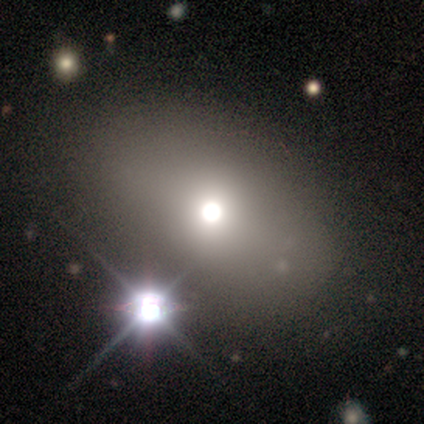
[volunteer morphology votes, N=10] smooth_or_featured: smooth (p=0.60) [alt: featured or disk p=0.20]
how_rounded: in between (p=1.00)
merging: none (p=0.75) [alt: minor disturbance p=0.12]